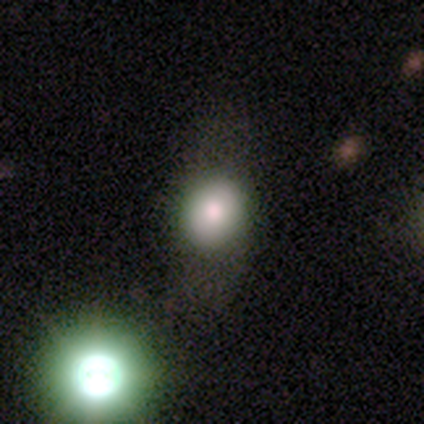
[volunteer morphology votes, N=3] Volunteers were most divided on "smooth or featured" (3-way tie): smooth: 33%, featured or disk: 33%, star or artifact: 33%. More confident: how rounded — in between (100%); merging — none (100%).